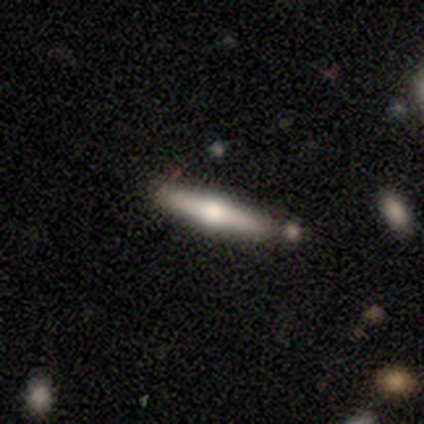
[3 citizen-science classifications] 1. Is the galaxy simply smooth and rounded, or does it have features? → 100% featured or disk, 0% smooth, 0% star or artifact.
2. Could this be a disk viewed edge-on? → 100% yes, 0% no.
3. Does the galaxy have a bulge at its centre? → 100% rounded, 0% boxy, 0% none.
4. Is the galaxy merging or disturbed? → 100% none, 0% minor disturbance, 0% major disturbance, 0% merger.